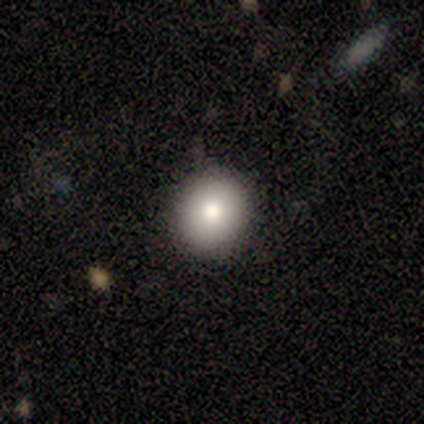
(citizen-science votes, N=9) Smooth or featured?
  - smooth: 67% *
  - star or artifact: 33%
  - featured or disk: 0%
How rounded?
  - round: 83% *
  - in between: 17%
  - cigar-shaped: 0%
Merging?
  - none: 67% *
  - minor disturbance: 33%
  - major disturbance: 0%
  - merger: 0%